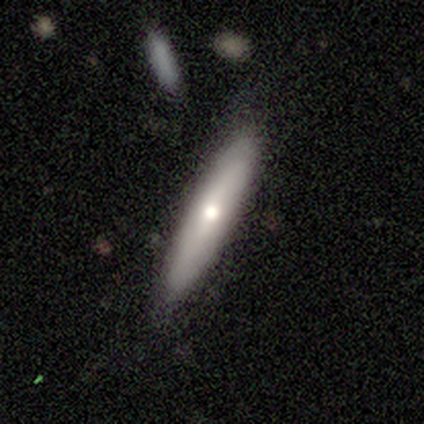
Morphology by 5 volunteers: Smooth or featured? smooth (40%, tied with featured or disk)
How rounded? in between (50%, tied with cigar-shaped)
Merging? none (100%)